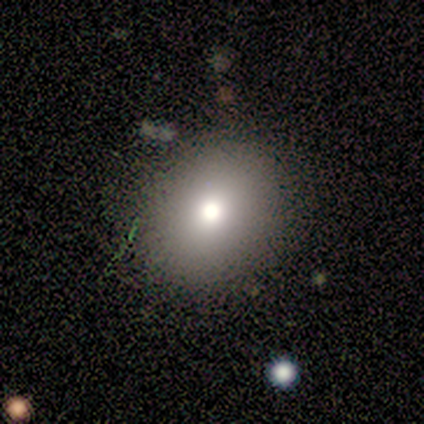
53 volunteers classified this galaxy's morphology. A smooth galaxy with no disk features (83%) that is round (68%). Merging: none (86%).